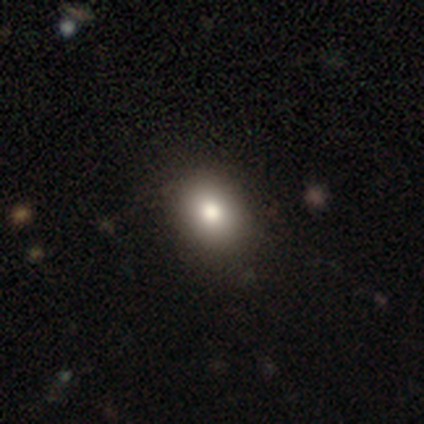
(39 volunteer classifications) This is clearly a smooth galaxy (90%). How rounded: possibly round (51%). Merging: likely none (68%).